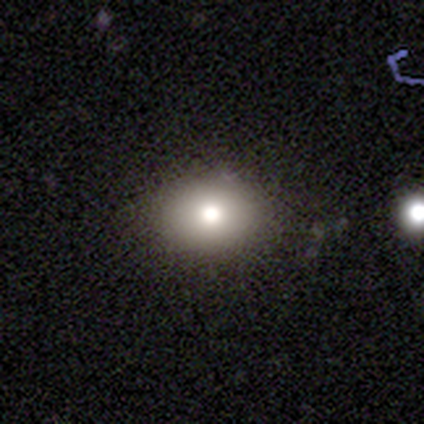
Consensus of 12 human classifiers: smooth 67%, featured or disk 17%, star or artifact 17%. Down the decision tree: how rounded — round (50%, tied with in between); merging — none (80%).